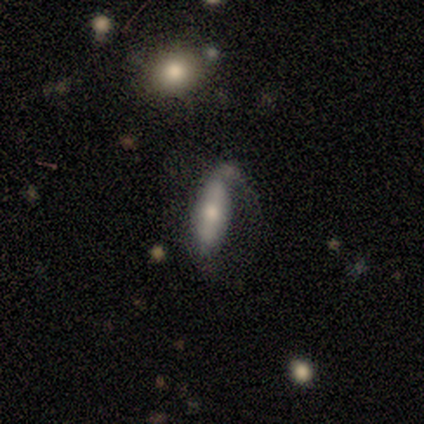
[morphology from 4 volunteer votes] A smooth galaxy with no disk features (50%) that is in between round and cigar-shaped (50%, tied with cigar-shaped).

Vote fractions:
- Smooth or featured? smooth: 50% / featured or disk: 25% / star or artifact: 25%
- How rounded? in between: 50% (tied) / cigar-shaped: 50% (tied) / round: 0%
- Merging? none: 33% (tied) / minor disturbance: 33% (tied) / major disturbance: 33% (tied) / merger: 0%